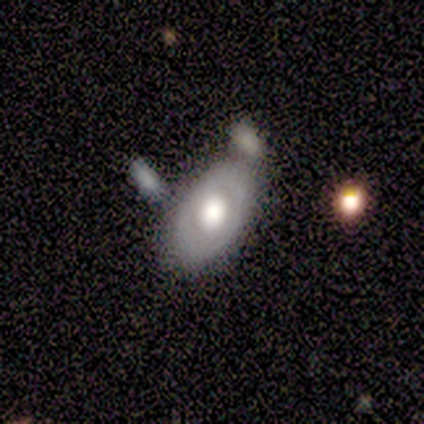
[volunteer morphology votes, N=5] Smooth or featured? featured or disk (80%)
Edge-on disk? no (100%)
Bar? no (100%)
Spiral arms? no (100%)
Bulge size? large (50%)
Merging? none (60%)